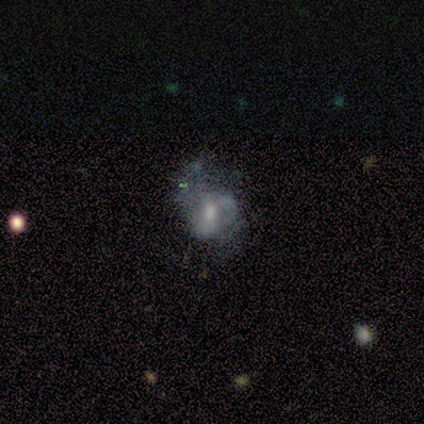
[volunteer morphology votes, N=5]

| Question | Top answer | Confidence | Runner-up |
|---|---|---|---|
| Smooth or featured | featured or disk | 80% | smooth (20%) |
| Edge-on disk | no | 100% | — |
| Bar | weak | 50% | tied: no (50%) |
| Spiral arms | yes | 50% | tied: no (50%) |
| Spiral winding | medium | 50% | tied: loose (50%) |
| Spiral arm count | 3 | 50% | tied: can't tell (50%) |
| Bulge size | small | 50% | dominant (25%) |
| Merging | minor disturbance | 60% | major disturbance (40%) |